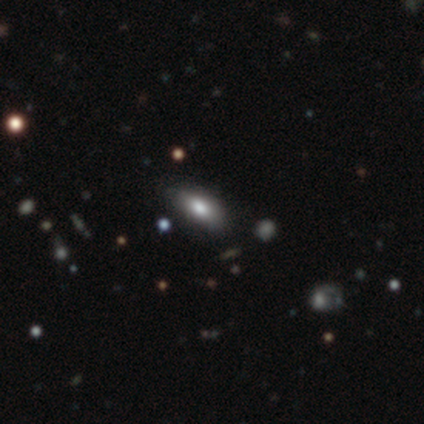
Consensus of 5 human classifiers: smooth_or_featured: smooth (p=0.80) [alt: star or artifact p=0.20]
how_rounded: in between (p=1.00)
merging: none (p=0.75) [alt: minor disturbance p=0.25]